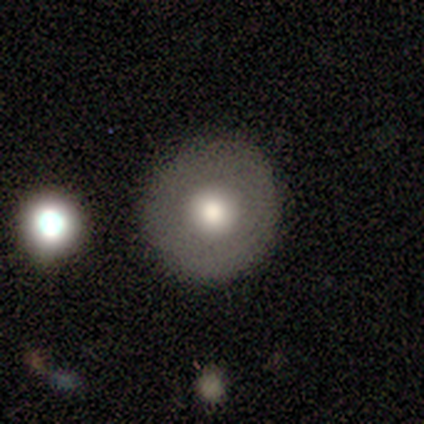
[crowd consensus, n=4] Smooth or featured: featured or disk — 75% (smooth — 25%)
Edge-on disk: no — 100%
Bar: no — 100%
Spiral arms: no — 100%
Bulge size: large — 67% (moderate — 33%)
Merging: none — 100%